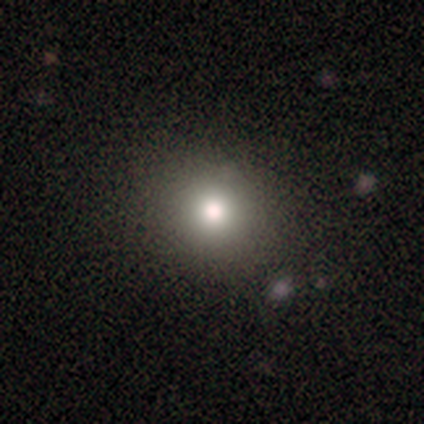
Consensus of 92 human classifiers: A smooth galaxy with no disk features (68%) that is round (92%).

Vote fractions:
- Smooth or featured? smooth: 68% / star or artifact: 24% / featured or disk: 8%
- How rounded? round: 92% / in between: 8% / cigar-shaped: 0%
- Merging? none: 96% / minor disturbance: 4% / major disturbance: 0% / merger: 0%